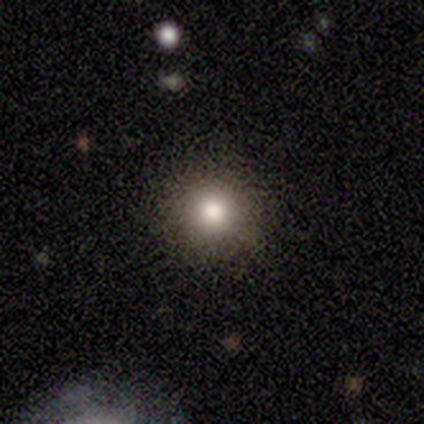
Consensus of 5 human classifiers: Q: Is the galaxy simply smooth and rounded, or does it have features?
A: smooth — 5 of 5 (100%).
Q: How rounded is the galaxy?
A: round — 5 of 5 (100%).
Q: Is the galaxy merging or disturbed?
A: none — 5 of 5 (100%).